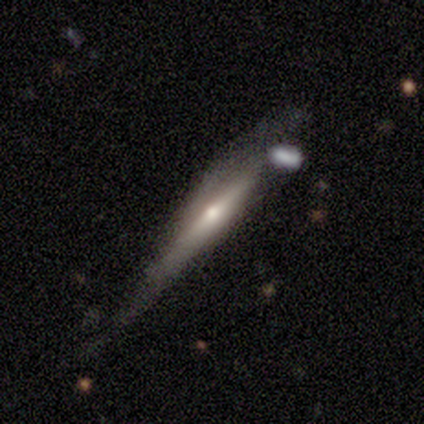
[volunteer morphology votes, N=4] smooth-or-featured: featured or disk: 75% | smooth: 25% | star or artifact: 0%
  disk-edge-on: yes: 67% | no: 33%
    edge-on-bulge: none: 50% (tied) | rounded: 50% (tied) | boxy: 0%
  merging: minor disturbance: 50% (tied) | major disturbance: 50% (tied) | none: 0% | merger: 0%